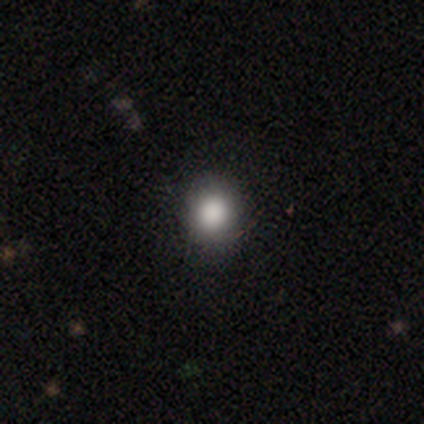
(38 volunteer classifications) This is likely a smooth galaxy (79%). How rounded: likely round (70%). Merging: likely none (63%).